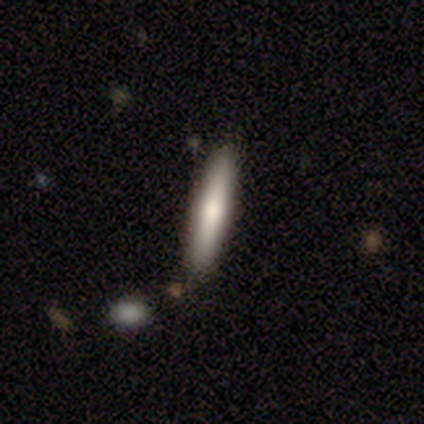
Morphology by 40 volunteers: This appears to be a smooth galaxy with no disk features (62%) that is cigar-shaped (100%). Merging: none (79%).